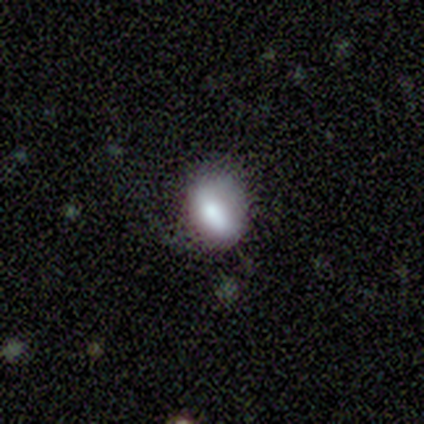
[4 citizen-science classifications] Morphology: type=smooth (75%); roundness=round (67%); merging=none (75%).